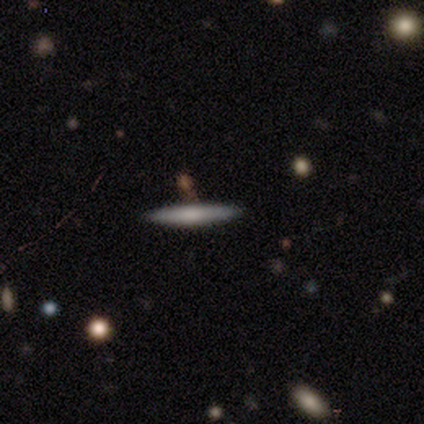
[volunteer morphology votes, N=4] Smooth or featured?
  - smooth: 50% * (tied)
  - featured or disk: 50% * (tied)
  - star or artifact: 0%
How rounded?
  - cigar-shaped: 100% *
  - round: 0%
  - in between: 0%
Merging?
  - none: 100% *
  - minor disturbance: 0%
  - major disturbance: 0%
  - merger: 0%